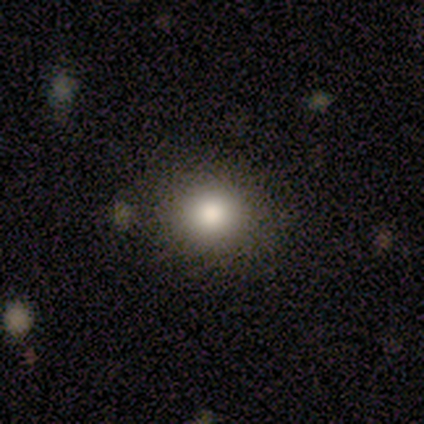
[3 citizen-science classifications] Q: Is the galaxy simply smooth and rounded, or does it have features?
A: smooth — 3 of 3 (100%).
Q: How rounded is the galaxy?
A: round — 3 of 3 (100%).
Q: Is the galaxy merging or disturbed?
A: none — 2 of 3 (67%).